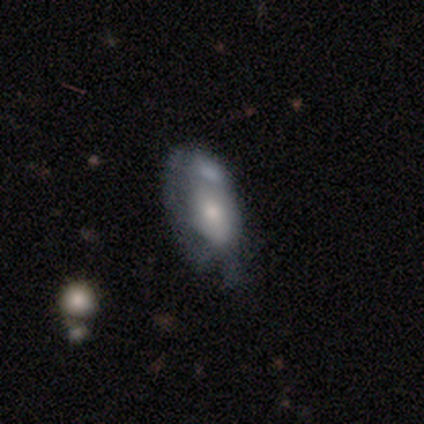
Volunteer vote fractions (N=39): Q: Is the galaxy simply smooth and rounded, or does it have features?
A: smooth — 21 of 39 (54%).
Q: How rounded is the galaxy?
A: in between — 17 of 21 (81%).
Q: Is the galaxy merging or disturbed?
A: none — 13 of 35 (37%).